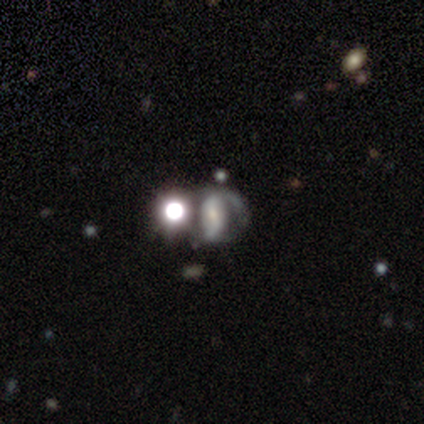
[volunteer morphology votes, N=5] Volunteers were most divided on "bulge size" (2-way tie): large: 50%, moderate: 50%, dominant: 0%, small: 0%, none: 0%. More confident: edge-on disk — no (100%); bar — strong (100%); spiral arms — yes (100%); spiral arm count — 2 (100%); smooth or featured — featured or disk (80%); spiral winding — loose (50%); merging — none (50%).